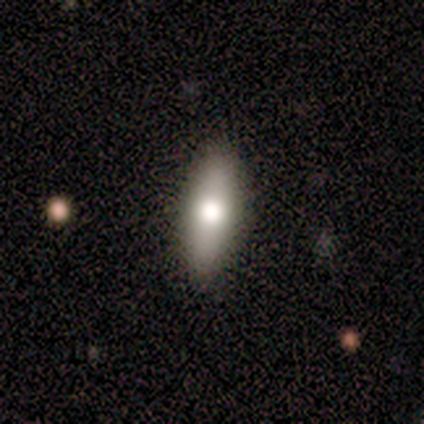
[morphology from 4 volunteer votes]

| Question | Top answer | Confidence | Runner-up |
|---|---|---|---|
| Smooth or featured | smooth | 100% | — |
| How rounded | in between | 100% | — |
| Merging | none | 75% | minor disturbance (25%) |